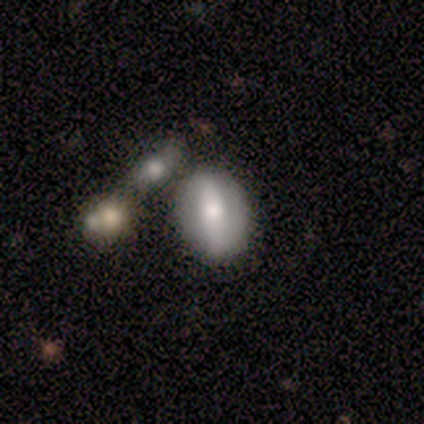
This is likely a smooth galaxy (60%). How rounded: clearly in between (100%). Merging: likely none (75%).